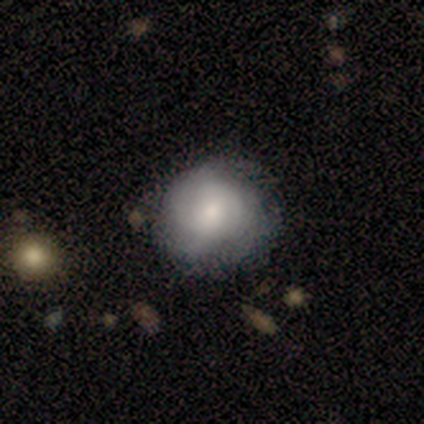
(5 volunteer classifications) Smooth or featured? smooth (60%)
How rounded? round (100%)
Merging? none (50%, tied with minor disturbance)